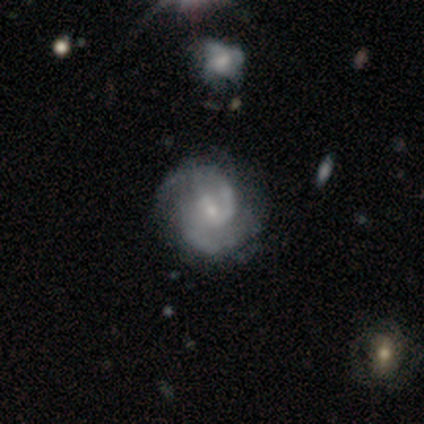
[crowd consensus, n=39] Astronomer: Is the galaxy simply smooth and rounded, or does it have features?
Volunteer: featured or disk — 97%.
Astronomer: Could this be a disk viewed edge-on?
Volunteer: no — 97%.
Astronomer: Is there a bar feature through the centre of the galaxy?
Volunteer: weak — 73%.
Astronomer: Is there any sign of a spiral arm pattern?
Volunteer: yes — 92%.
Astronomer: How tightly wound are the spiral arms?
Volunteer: medium — 74%.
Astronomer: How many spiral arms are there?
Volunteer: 2 — 82%.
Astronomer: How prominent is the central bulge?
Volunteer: small — 70%.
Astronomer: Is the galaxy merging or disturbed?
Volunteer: none — 64%.